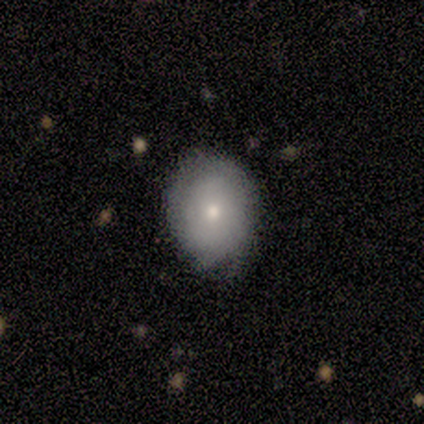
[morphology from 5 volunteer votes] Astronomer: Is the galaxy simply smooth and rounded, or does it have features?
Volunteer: smooth — 100%.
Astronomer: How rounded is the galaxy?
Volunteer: in between — 60% (runner-up: round, 40%).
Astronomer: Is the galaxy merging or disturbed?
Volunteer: none — 80%.